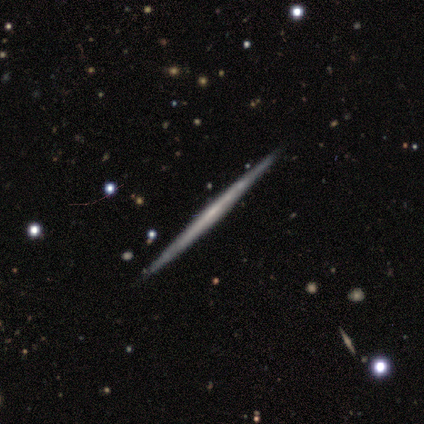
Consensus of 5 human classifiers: Q: Smooth or featured?
A: featured or disk (100%)
Q: Edge-on disk?
A: yes (100%)
Q: Edge-on bulge?
A: none (100%)
Q: Merging?
A: none (100%)